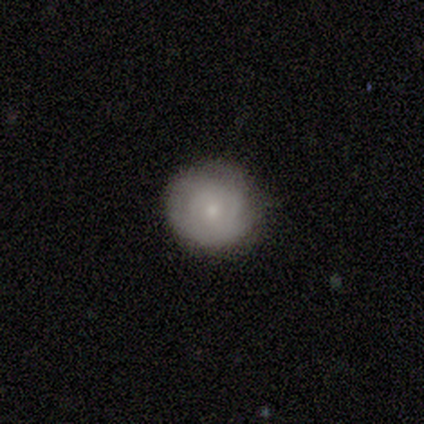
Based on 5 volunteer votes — Volunteers were most divided on "merging": none: 80%, minor disturbance: 20%, major disturbance: 0%, merger: 0%. More confident: smooth or featured — smooth (100%); how rounded — round (100%).